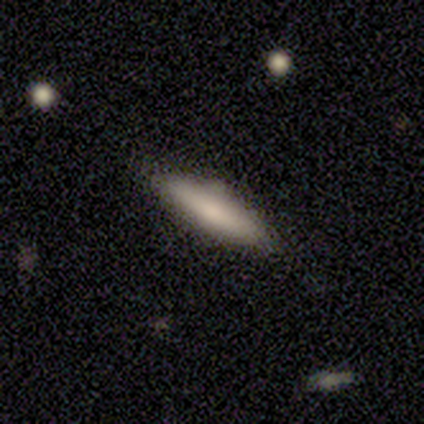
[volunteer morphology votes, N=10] This appears to be a featured or disk galaxy (50%) viewed edge-on (60%) with no central bulge (100%). Merging: none (78%).